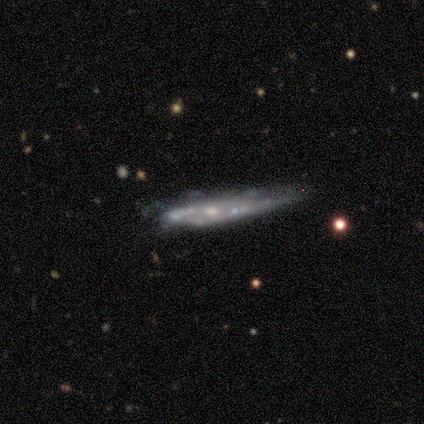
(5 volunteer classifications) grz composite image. It shows a featured or disk galaxy (80%) viewed edge-on (100%) with no central bulge (75%). Merging: minor disturbance (60%).